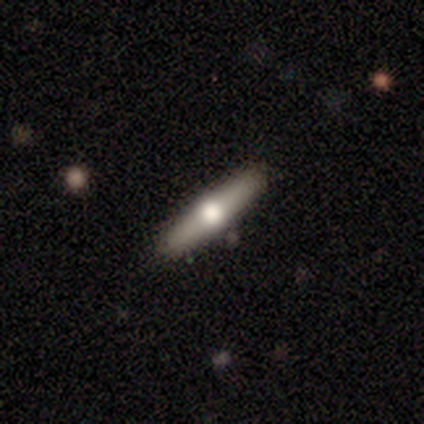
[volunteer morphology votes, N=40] smooth-or-featured: featured or disk: 62% | smooth: 32% | star or artifact: 5%
  disk-edge-on: yes: 100% | no: 0%
    edge-on-bulge: rounded: 100% | boxy: 0% | none: 0%
  merging: none: 92% | minor disturbance: 8% | major disturbance: 0% | merger: 0%